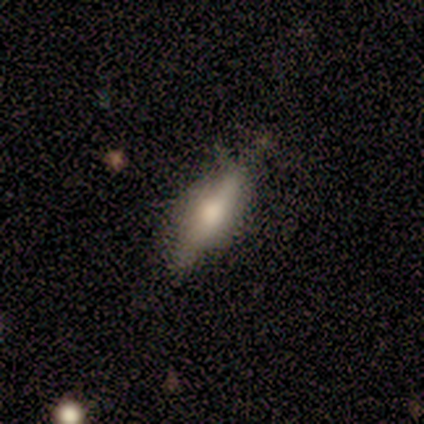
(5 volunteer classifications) Overall: smooth (80%). How rounded: in between (50%, tied with cigar-shaped). Merging: none (80%).